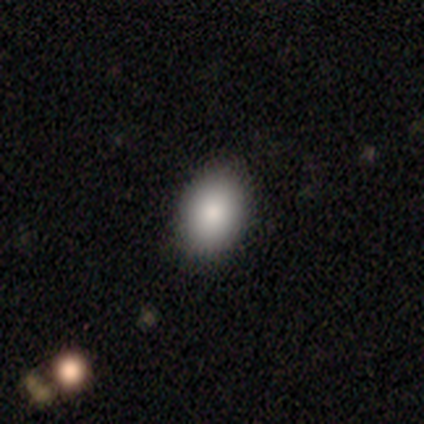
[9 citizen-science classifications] smooth-or-featured: smooth: 100% | featured or disk: 0% | star or artifact: 0%
  how-rounded: in between: 78% | round: 22% | cigar-shaped: 0%
  merging: none: 100% | minor disturbance: 0% | major disturbance: 0% | merger: 0%